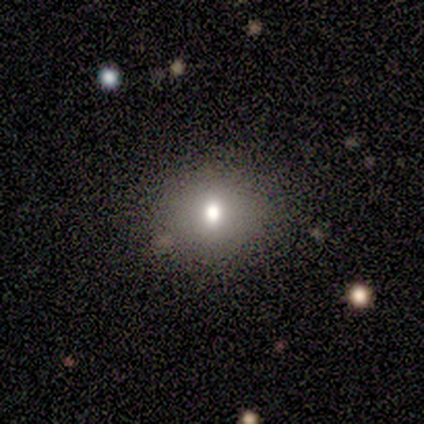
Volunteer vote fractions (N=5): A smooth galaxy with no disk features (80%) that is round (100%). Merging: minor disturbance (40%, tied with major disturbance).